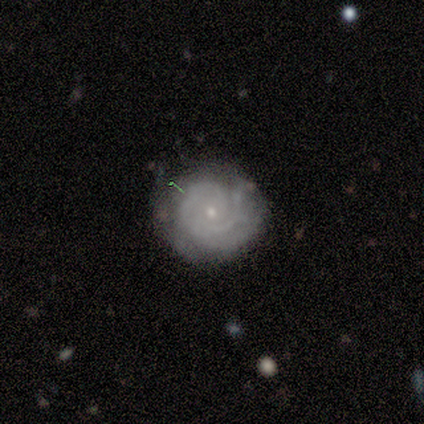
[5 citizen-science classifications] Volunteers were most divided on "bar" (2-way tie): weak: 50%, no: 50%, strong: 0%. More confident: edge-on disk — no (100%); spiral arms — yes (100%); smooth or featured — featured or disk (80%); spiral winding — tight (75%); bulge size — small (75%); merging — none (60%); spiral arm count — 3 (50%).